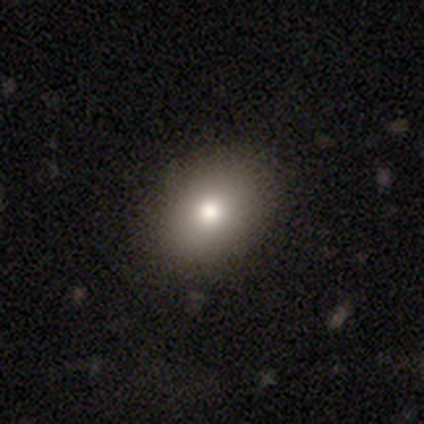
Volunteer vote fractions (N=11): smooth_or_featured: smooth (p=0.64) [alt: featured or disk p=0.18]
how_rounded: in between (p=0.71) [alt: round p=0.29]
merging: none (p=1.00)